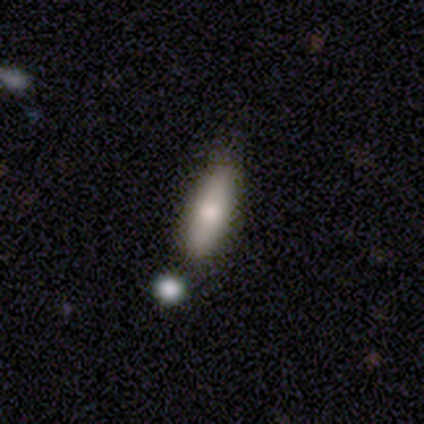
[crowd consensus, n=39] This appears to be a smooth galaxy with no disk features (64%) that is cigar-shaped (52%). Merging: none (72%).